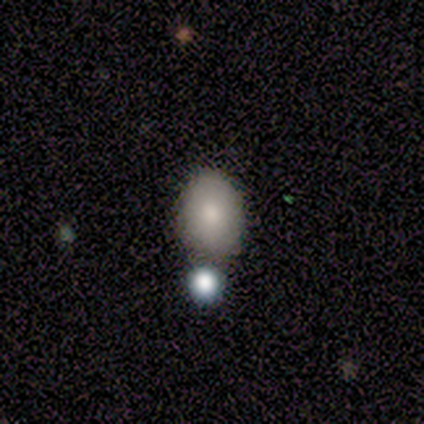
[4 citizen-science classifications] Overall: smooth (75%). How rounded: in between (100%). Merging: none (75%).